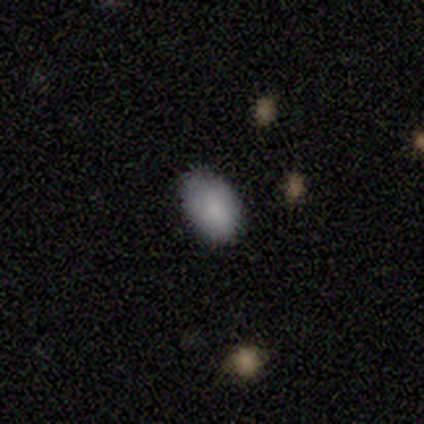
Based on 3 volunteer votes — Smooth or featured? smooth (67%)
How rounded? round (50%, tied with in between)
Merging? none (100%)